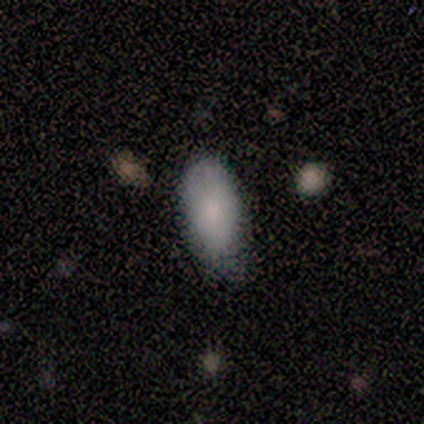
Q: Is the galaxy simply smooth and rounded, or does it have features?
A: smooth — 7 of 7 (100%).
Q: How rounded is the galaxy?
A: in between — 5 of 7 (71%).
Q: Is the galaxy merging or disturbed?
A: minor disturbance — 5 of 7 (71%).